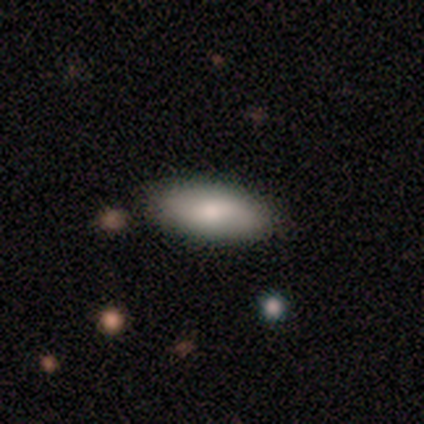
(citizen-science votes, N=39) A smooth galaxy with no disk features (74%) that is in between round and cigar-shaped (76%).

Vote fractions:
- Smooth or featured? smooth: 74% / featured or disk: 21% / star or artifact: 5%
- How rounded? in between: 76% / cigar-shaped: 24% / round: 0%
- Merging? none: 81% / minor disturbance: 14% / major disturbance: 3% / merger: 3%